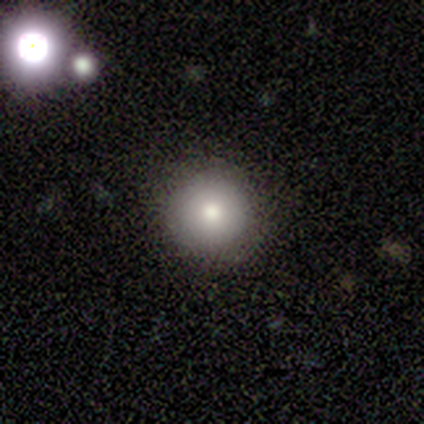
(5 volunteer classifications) Q: Smooth or featured?
A: smooth (60%); runner-up: featured or disk (20%)
Q: How rounded?
A: round (100%)
Q: Merging?
A: none (75%); runner-up: merger (25%)